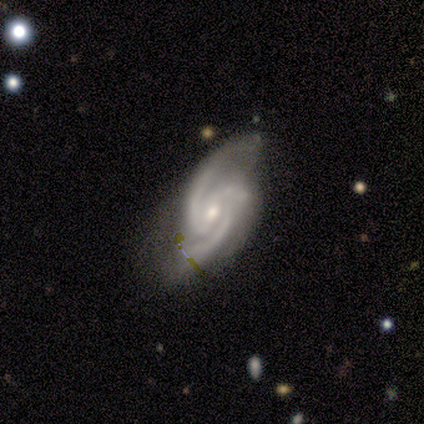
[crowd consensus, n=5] Overall: featured or disk (100%). Edge-on disk: no (100%). Bar: no (60%; weak 40%). Spiral arms: yes (100%). Spiral arm count: 2 (80%). Spiral winding: medium (80%). Bulge size: small (80%). Merging: none (40%, tied with minor disturbance).